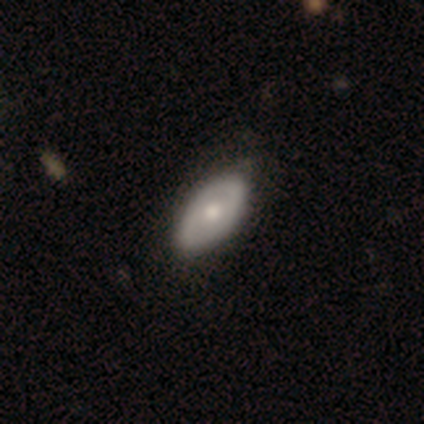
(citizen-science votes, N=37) Volunteers were most divided on "smooth or featured": featured or disk: 59%, smooth: 41%, star or artifact: 0%. More confident: edge-on disk — no (91%); bar — no (85%); spiral arms — no (75%); merging — none (62%); bulge size — moderate (60%).